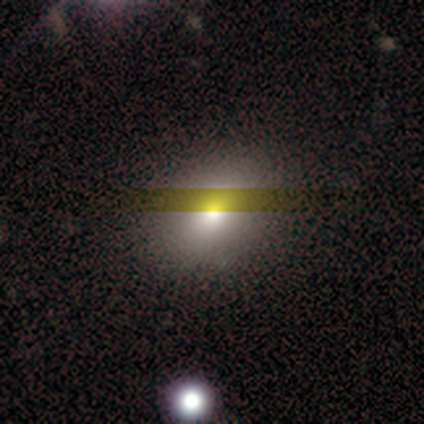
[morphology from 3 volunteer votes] smooth_or_featured: smooth (p=0.67) [alt: featured or disk p=0.33]
how_rounded: in between (p=1.00)
merging: none (p=0.67) [alt: minor disturbance p=0.33]